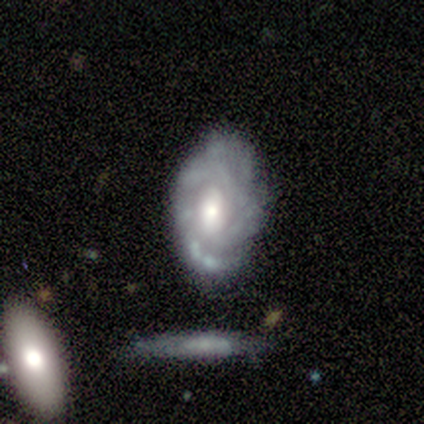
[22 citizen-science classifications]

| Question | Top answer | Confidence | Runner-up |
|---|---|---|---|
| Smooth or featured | featured or disk | 77% | smooth (18%) |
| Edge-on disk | no | 100% | — |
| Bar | weak | 47% | tied: no (47%) |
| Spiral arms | yes | 94% | no (6%) |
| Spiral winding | tight | 69% | medium (19%) |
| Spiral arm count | can't tell | 62% | 4 (12%) |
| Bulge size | moderate | 65% | small (24%) |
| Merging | none | 19% | minor disturbance (14%) |